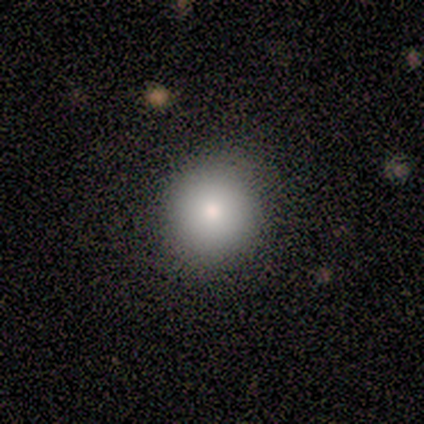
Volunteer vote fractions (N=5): smooth_or_featured: smooth (p=1.00)
how_rounded: round (p=0.80) [alt: in between p=0.20]
merging: none (p=0.80) [alt: minor disturbance p=0.20]